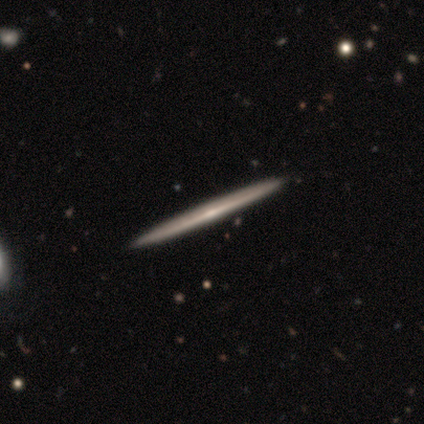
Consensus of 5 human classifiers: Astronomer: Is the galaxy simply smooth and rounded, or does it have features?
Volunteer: featured or disk — 60% (runner-up: smooth, 40%).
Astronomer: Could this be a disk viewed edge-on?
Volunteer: yes — 67%.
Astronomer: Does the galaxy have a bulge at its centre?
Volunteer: boxy — 50%, tied with none at 50%.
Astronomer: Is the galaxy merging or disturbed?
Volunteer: none — 80%.